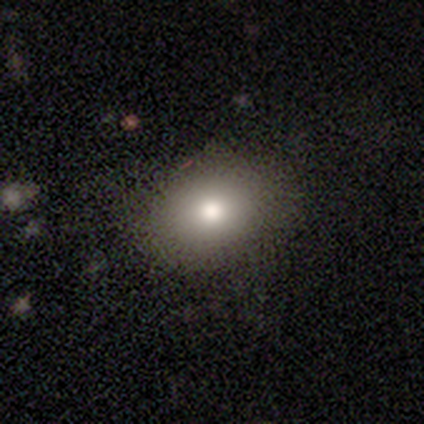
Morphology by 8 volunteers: A smooth galaxy with no disk features (75%) that is round (50%, tied with in between).

Vote fractions:
- Smooth or featured? smooth: 75% / featured or disk: 12% / star or artifact: 12%
- How rounded? round: 50% (tied) / in between: 50% (tied) / cigar-shaped: 0%
- Merging? none: 71% / minor disturbance: 14% / major disturbance: 14% / merger: 0%